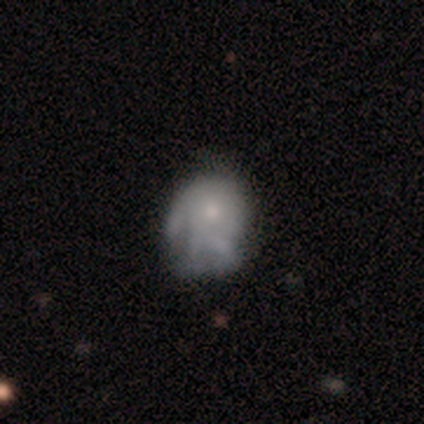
Smooth or featured: smooth — 40% (tied with featured or disk — 40%)
How rounded: round — 50% (tied with in between — 50%)
Merging: minor disturbance — 50% (none — 25%)